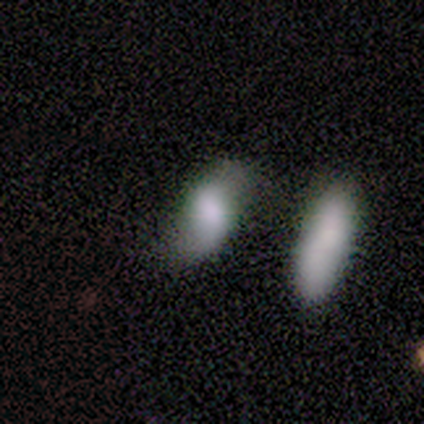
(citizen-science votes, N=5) Smooth or featured?
  - smooth: 80% *
  - star or artifact: 20%
  - featured or disk: 0%
How rounded?
  - in between: 100% *
  - round: 0%
  - cigar-shaped: 0%
Merging?
  - merger: 50% *
  - none: 25%
  - minor disturbance: 25%
  - major disturbance: 0%